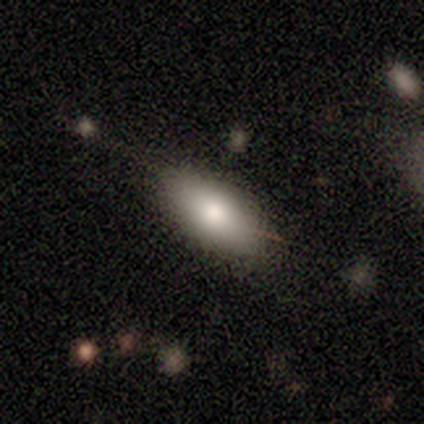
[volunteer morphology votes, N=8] type=smooth (88%); roundness=in between (100%); merging=none (71%).